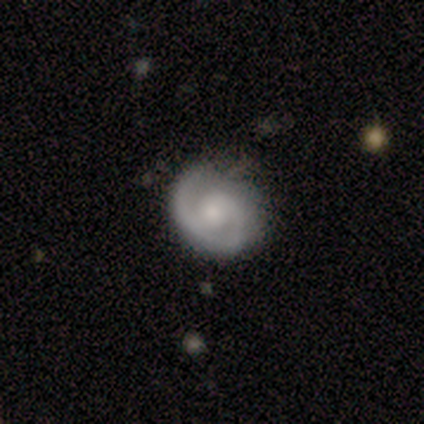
Smooth or featured? 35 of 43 (81%) said featured or disk. Edge-on disk? 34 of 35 (97%) said no. Bar? 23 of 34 (68%) said no. Spiral arms? 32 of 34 (94%) said yes. Spiral winding? 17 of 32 (53%) said tight. Spiral arm count? 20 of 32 (62%) said 2. Bulge size? 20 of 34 (59%) said small. Merging? 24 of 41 (59%) said none.